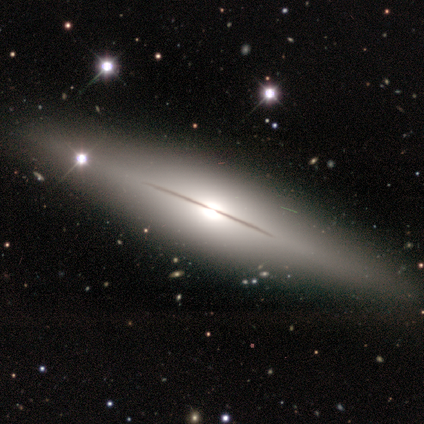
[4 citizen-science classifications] This is possibly a smooth galaxy (50%, tied with featured or disk). How rounded: clearly cigar-shaped (100%). Merging: clearly none (100%).